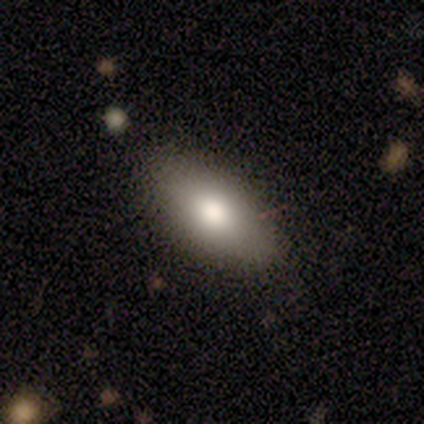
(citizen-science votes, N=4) Smooth or featured? smooth (75%)
How rounded? in between (100%)
Merging? none (67%)